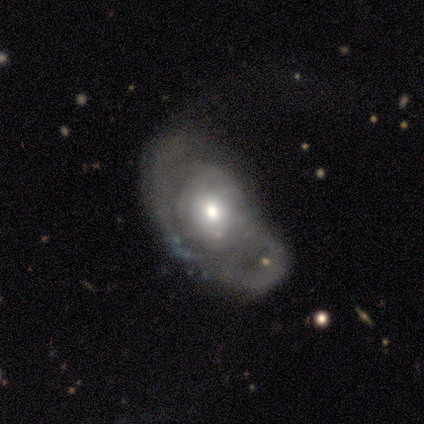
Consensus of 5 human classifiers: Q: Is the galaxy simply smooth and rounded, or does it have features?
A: featured or disk — 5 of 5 (100%).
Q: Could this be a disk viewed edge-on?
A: no — 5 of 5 (100%).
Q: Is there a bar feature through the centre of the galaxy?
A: no — 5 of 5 (100%).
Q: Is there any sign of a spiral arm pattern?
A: yes — 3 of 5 (60%).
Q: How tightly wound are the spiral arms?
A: tight — 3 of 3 (100%).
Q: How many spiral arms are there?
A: can't tell — 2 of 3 (67%).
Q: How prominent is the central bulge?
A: moderate — 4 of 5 (80%).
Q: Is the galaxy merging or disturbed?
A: major disturbance — 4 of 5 (80%).